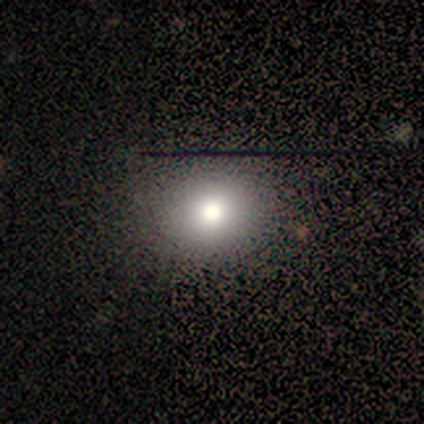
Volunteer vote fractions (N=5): A smooth galaxy with no disk features (80%) that is round (75%). Merging: none (80%).